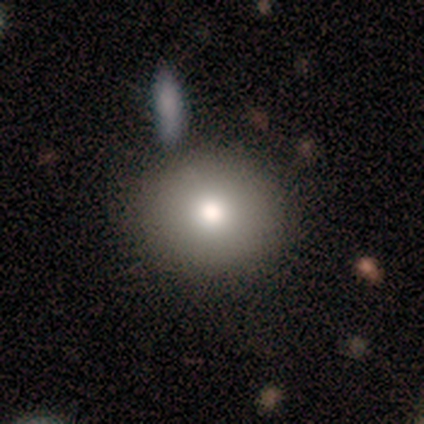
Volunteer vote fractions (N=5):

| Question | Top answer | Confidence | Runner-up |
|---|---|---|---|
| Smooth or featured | smooth | 40% | tied: featured or disk (40%) |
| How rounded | round | 50% | tied: in between (50%) |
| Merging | none | 75% | minor disturbance (25%) |